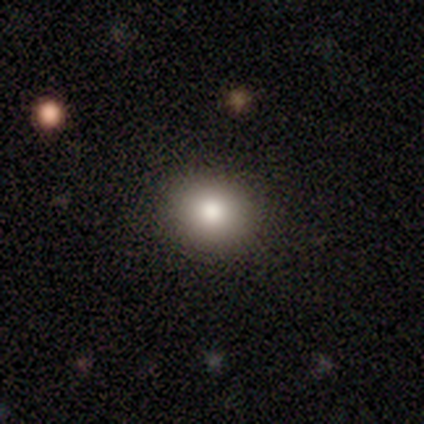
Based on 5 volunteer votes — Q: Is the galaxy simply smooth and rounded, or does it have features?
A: smooth — 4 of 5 (80%).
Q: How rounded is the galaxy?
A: round — 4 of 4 (100%).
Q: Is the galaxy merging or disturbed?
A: none — 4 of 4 (100%).